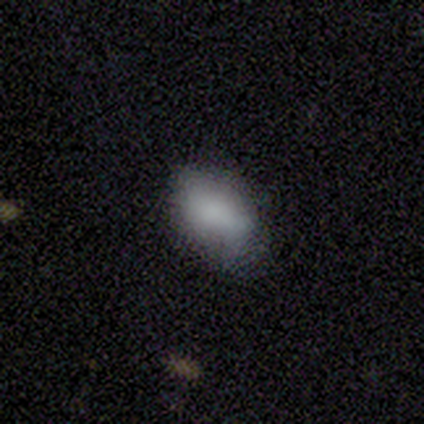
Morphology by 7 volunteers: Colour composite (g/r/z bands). It shows a smooth galaxy with no disk features (100%) that is in between round and cigar-shaped (86%). Merging: minor disturbance (57%).